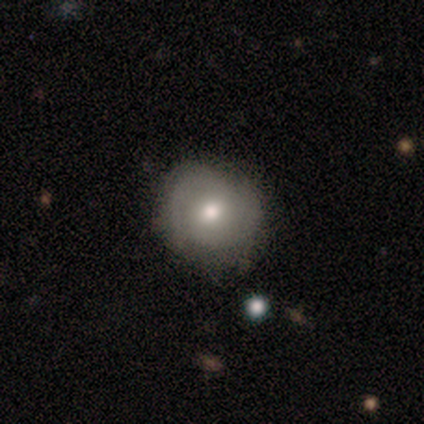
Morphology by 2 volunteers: A smooth galaxy with no disk features (50%, tied with featured or disk) that is round (100%).

Vote fractions:
- Smooth or featured? smooth: 50% (tied) / featured or disk: 50% (tied) / star or artifact: 0%
- How rounded? round: 100% / in between: 0% / cigar-shaped: 0%
- Merging? none: 50% (tied) / minor disturbance: 50% (tied) / major disturbance: 0% / merger: 0%